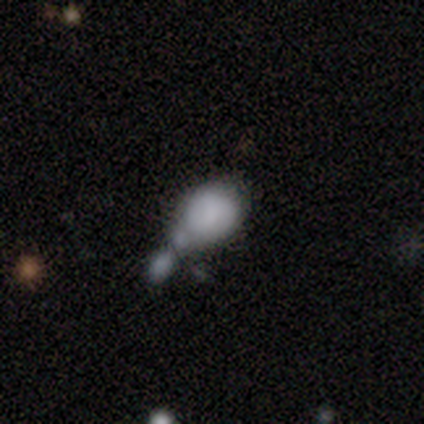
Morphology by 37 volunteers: smooth 76%, featured or disk 22%, star or artifact 3%. Down the decision tree: how rounded — in between (68%); merging — merger (64%).